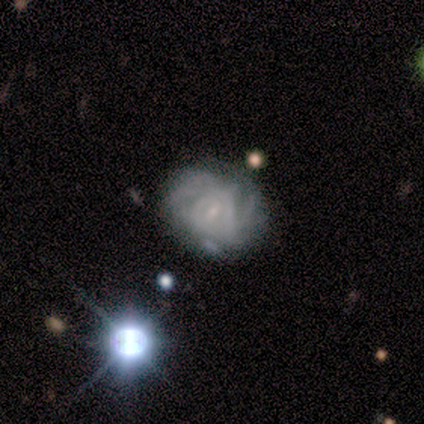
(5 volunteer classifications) A featured or disk galaxy (80%) with a weak bar (75%), tight (50%, tied with medium) spiral arms (100%) and a small central bulge (100%).

Vote fractions:
- Smooth or featured? featured or disk: 80% / star or artifact: 20% / smooth: 0%
- Edge-on disk? no: 100% / yes: 0%
- Bar? weak: 75% / strong: 25% / no: 0%
- Spiral arms? yes: 100% / no: 0%
- Spiral winding? tight: 50% (tied) / medium: 50% (tied) / loose: 0%
- Spiral arm count? can't tell: 50% / 2: 25% / 3: 25% / 1: 0% / 4: 0% / more than 4: 0%
- Bulge size? small: 100% / dominant: 0% / large: 0% / moderate: 0% / none: 0%
- Merging? none: 50% (tied) / minor disturbance: 50% (tied) / major disturbance: 0% / merger: 0%